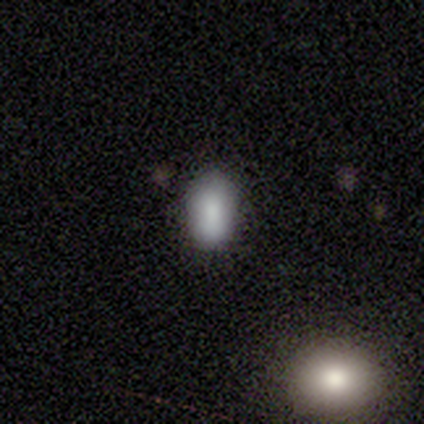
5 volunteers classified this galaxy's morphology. Volunteers were most divided on "how rounded": in between: 80%, cigar-shaped: 20%, round: 0%. More confident: smooth or featured — smooth (100%); merging — none (100%).